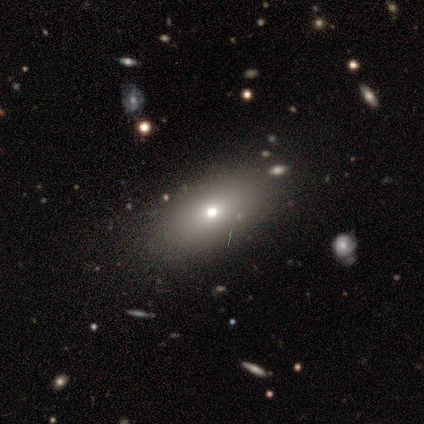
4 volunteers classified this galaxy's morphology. Overall: featured or disk (75%). Edge-on disk: no (67%; yes 33%). Bar: weak (50%, tied with no). Spiral arms: no (100%). Bulge size: small (100%). Merging: none (67%; merger 33%).